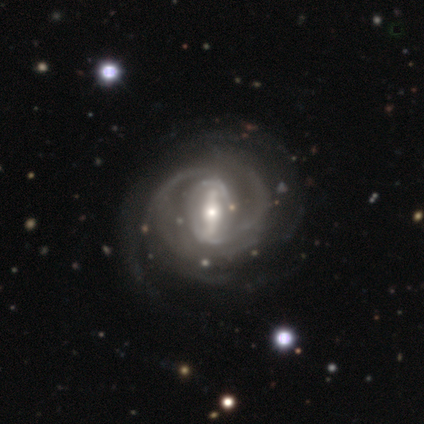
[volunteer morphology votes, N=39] smooth-or-featured: featured or disk: 95% | star or artifact: 5% | smooth: 0%
  disk-edge-on: no: 92% | yes: 8%
    bar: strong: 79% | weak: 15% | no: 6%
    has-spiral-arms: yes: 94% | no: 6%
      spiral-winding: tight: 50% | medium: 41% | loose: 9%
      spiral-arm-count: 3: 31% | 2: 25% | can't tell: 22% | more than 4: 16% | 4: 6% | 1: 0%
    bulge-size: moderate: 50% | small: 44% | large: 6% | dominant: 0% | none: 0%
  merging: none: 41% | major disturbance: 11% | minor disturbance: 8% | merger: 0%